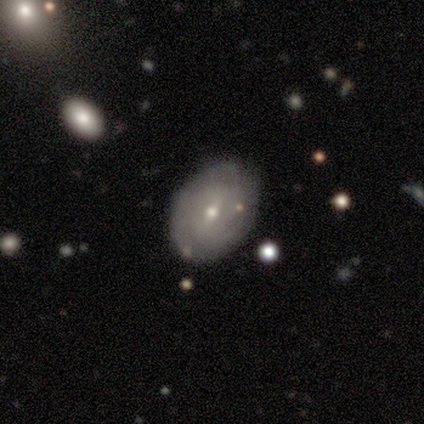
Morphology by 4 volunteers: Smooth or featured?
  - featured or disk: 75% *
  - smooth: 25%
  - star or artifact: 0%
Edge-on disk?
  - no: 100% *
  - yes: 0%
Bar?
  - weak: 67% *
  - no: 33%
  - strong: 0%
Spiral arms?
  - no: 100% *
  - yes: 0%
Bulge size?
  - small: 67% *
  - moderate: 33%
  - dominant: 0%
  - large: 0%
  - none: 0%
Merging?
  - none: 100% *
  - minor disturbance: 0%
  - major disturbance: 0%
  - merger: 0%